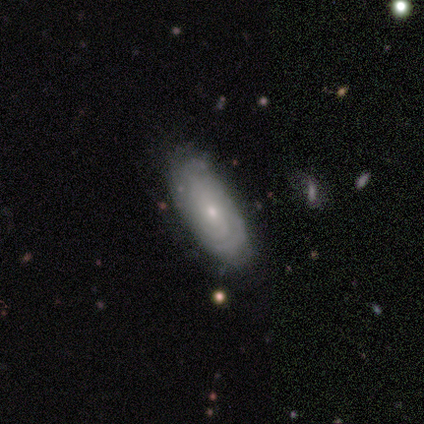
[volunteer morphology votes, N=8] Smooth or featured: featured or disk — 100%
Edge-on disk: no — 62% (yes — 38%)
Bar: no — 80% (weak — 20%)
Spiral arms: no — 60% (yes — 40%)
Bulge size: small — 80% (moderate — 20%)
Merging: none — 50% (tied with minor disturbance — 50%)